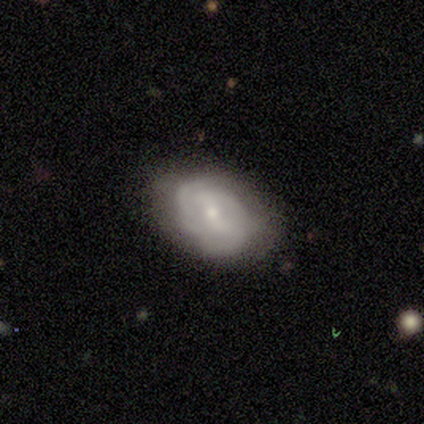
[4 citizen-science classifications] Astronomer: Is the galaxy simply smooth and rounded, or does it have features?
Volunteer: featured or disk — 50%.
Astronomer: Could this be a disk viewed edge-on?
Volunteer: no — 100%.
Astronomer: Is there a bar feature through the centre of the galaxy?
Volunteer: strong — 50%, tied with no at 50%.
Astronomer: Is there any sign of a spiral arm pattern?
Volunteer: yes — 100%.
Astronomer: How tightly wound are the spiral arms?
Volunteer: tight — 50%, tied with medium at 50%.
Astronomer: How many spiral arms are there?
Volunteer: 4 — 50%, tied with can't tell at 50%.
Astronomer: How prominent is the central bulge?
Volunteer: large — 50%, tied with moderate at 50%.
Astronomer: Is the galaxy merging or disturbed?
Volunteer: none — 67%.